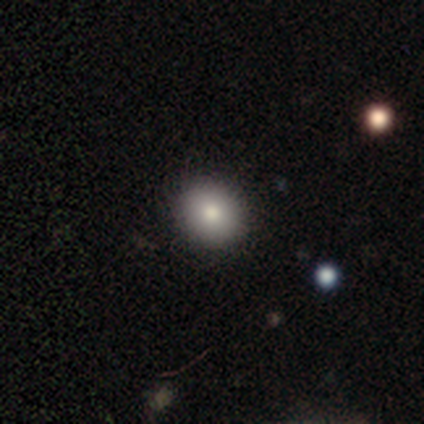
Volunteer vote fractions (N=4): This appears to be a smooth galaxy with no disk features (75%) that is round (100%). Merging: none (100%).